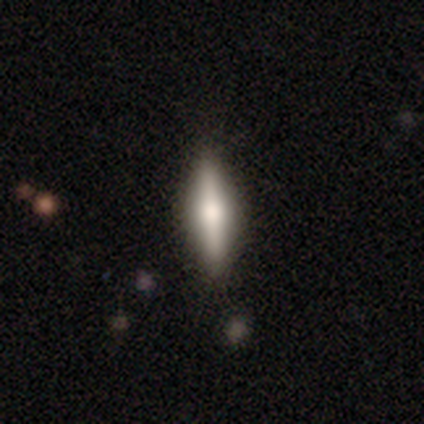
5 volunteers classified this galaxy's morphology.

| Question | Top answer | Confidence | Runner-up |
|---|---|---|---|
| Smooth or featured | featured or disk | 60% | smooth (40%) |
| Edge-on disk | yes | 100% | — |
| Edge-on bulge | rounded | 100% | — |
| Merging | none | 100% | — |